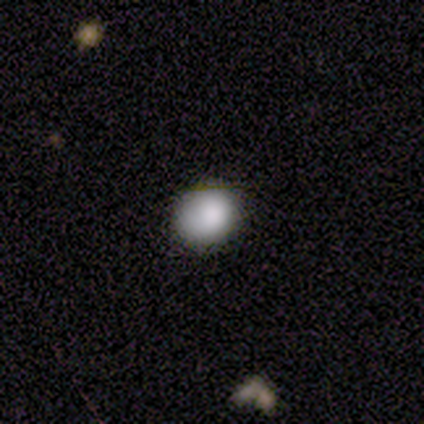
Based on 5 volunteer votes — Smooth or featured? smooth (100%)
How rounded? in between (60%)
Merging? none (60%)